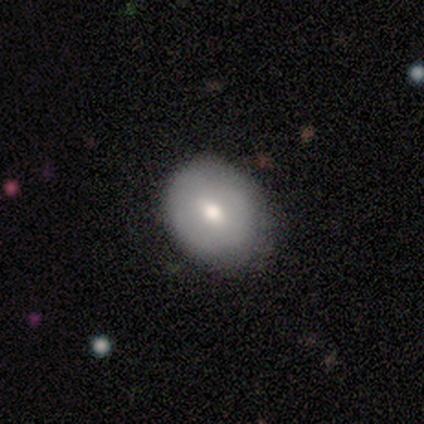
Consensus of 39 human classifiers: This appears to be a smooth galaxy with no disk features (62%) that is round (50%, tied with in between). Merging: none (65%).